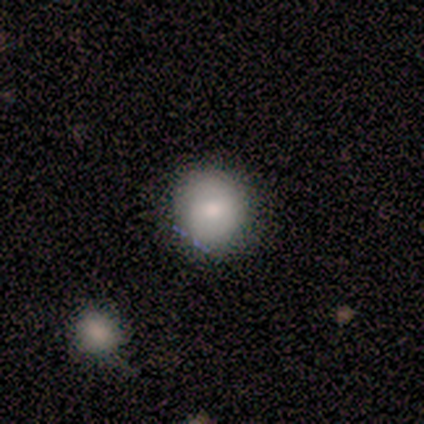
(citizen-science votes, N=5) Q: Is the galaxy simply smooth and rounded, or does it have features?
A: smooth — 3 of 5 (60%).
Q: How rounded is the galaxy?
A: round — 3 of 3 (100%).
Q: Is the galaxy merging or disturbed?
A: none — 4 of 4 (100%).